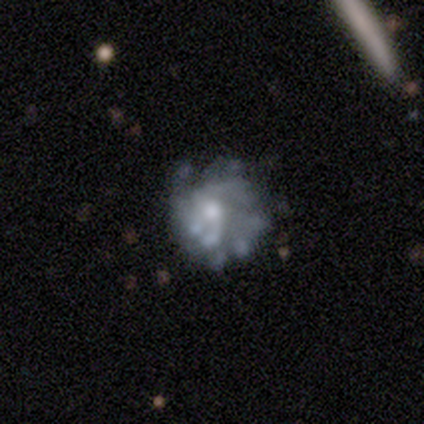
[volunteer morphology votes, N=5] Smooth or featured? featured or disk (100%)
Edge-on disk? no (80%)
Bar? no (75%)
Spiral arms? no (100%)
Bulge size? moderate (50%)
Merging? merger (40%)